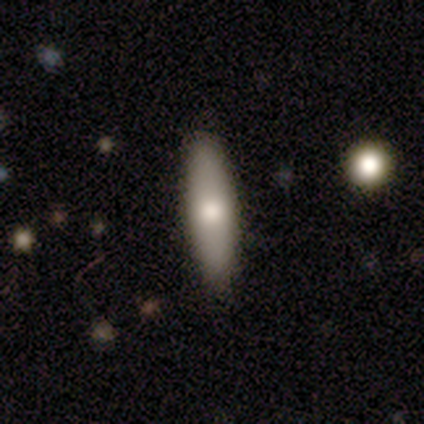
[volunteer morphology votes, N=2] A smooth galaxy with no disk features (50%, tied with featured or disk) that is cigar-shaped (100%).

Vote fractions:
- Smooth or featured? smooth: 50% (tied) / featured or disk: 50% (tied) / star or artifact: 0%
- How rounded? cigar-shaped: 100% / round: 0% / in between: 0%
- Merging? none: 100% / minor disturbance: 0% / major disturbance: 0% / merger: 0%